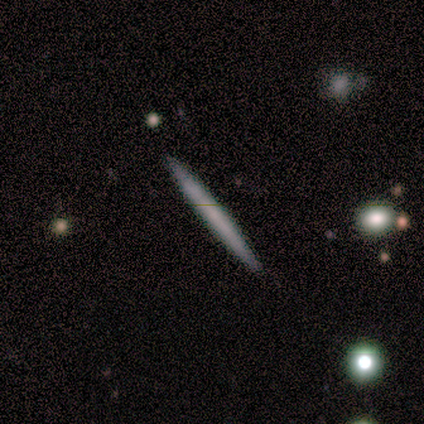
smooth 100%, featured or disk 0%, star or artifact 0%. Down the decision tree: how rounded — cigar-shaped (100%); merging — none (100%).